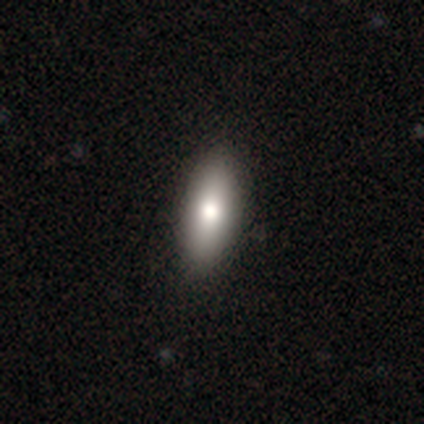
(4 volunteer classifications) A smooth galaxy with no disk features (100%) that is in between round and cigar-shaped (75%).

Vote fractions:
- Smooth or featured? smooth: 100% / featured or disk: 0% / star or artifact: 0%
- How rounded? in between: 75% / cigar-shaped: 25% / round: 0%
- Merging? none: 50% / minor disturbance: 25% / major disturbance: 25% / merger: 0%